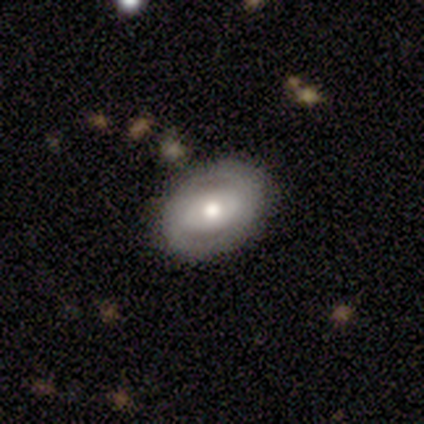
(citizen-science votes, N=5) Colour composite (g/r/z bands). It shows a featured or disk galaxy (60%) with no bar (100%), medium (100%) spiral arms (50%, tied with no) and a small central bulge (100%). Merging: none (100%).